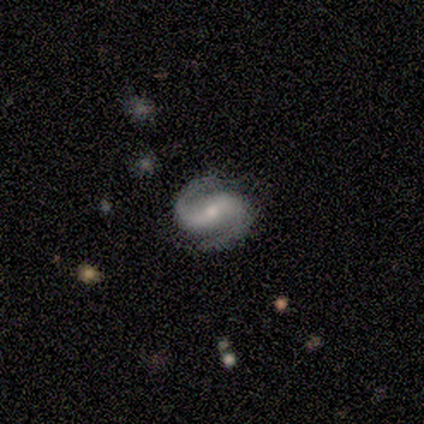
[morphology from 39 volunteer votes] Smooth or featured: featured or disk — 82% (star or artifact — 10%)
Edge-on disk: no — 97% (yes — 3%)
Bar: weak — 35% (strong — 32%)
Spiral arms: yes — 97% (no — 3%)
Spiral winding: medium — 63% (tight — 23%)
Spiral arm count: 2 — 100%
Bulge size: moderate — 52% (small — 45%)
Merging: none — 80% (minor disturbance — 17%)